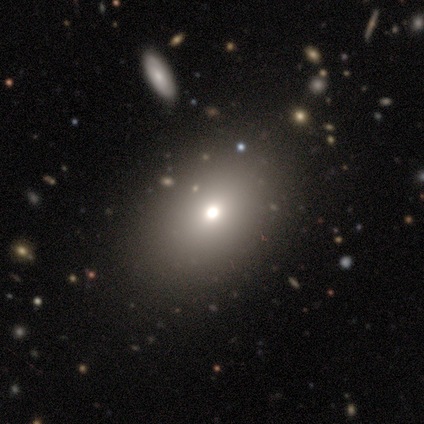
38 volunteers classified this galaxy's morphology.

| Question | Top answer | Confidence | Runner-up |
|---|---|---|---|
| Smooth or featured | smooth | 74% | featured or disk (13%) |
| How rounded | in between | 75% | round (25%) |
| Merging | none | 88% | minor disturbance (9%) |